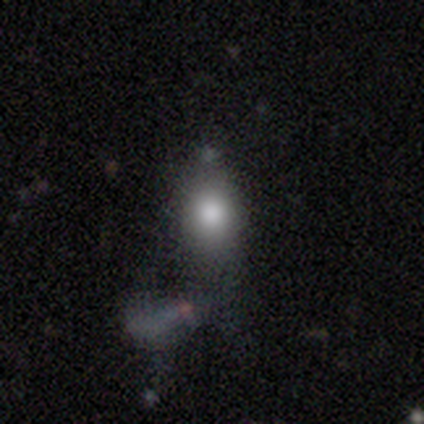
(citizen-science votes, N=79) Volunteers were most divided on "merging": none: 26%, major disturbance: 17%, merger: 16%, minor disturbance: 12%. More confident: smooth or featured — smooth (85%); how rounded — in between (70%).